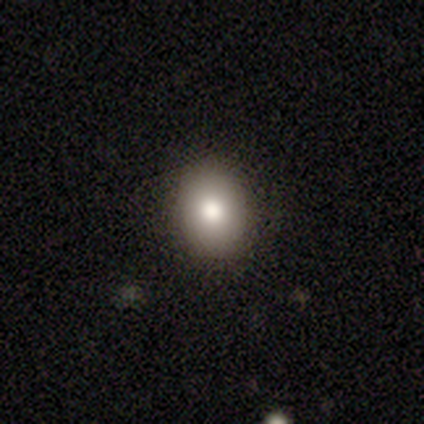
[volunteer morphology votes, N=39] smooth 87%, featured or disk 10%, star or artifact 3%. Down the decision tree: how rounded — in between (65%); merging — none (89%).